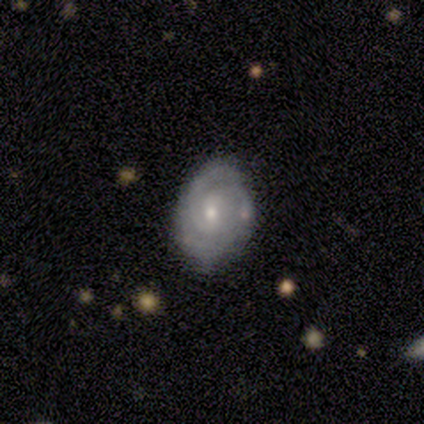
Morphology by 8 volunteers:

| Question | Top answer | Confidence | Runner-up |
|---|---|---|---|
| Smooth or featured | featured or disk | 100% | — |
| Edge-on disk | no | 100% | — |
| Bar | no | 62% | weak (38%) |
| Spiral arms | yes | 100% | — |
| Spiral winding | tight | 62% | loose (25%) |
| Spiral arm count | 2 | 38% | 3 (25%) |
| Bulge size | moderate | 50% | tied: small (50%) |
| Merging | none | 75% | minor disturbance (12%) |